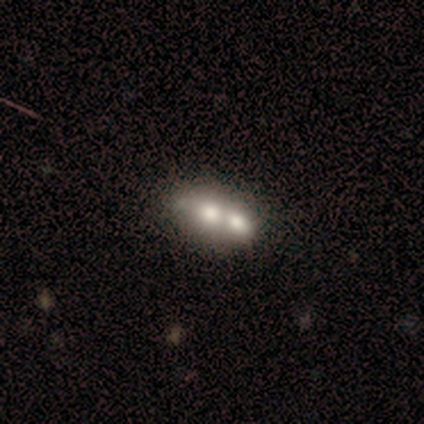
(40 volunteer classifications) Volunteers were most divided on "smooth or featured": smooth: 50%, featured or disk: 38%, star or artifact: 12%. More confident: how rounded — in between (85%); merging — merger (77%).